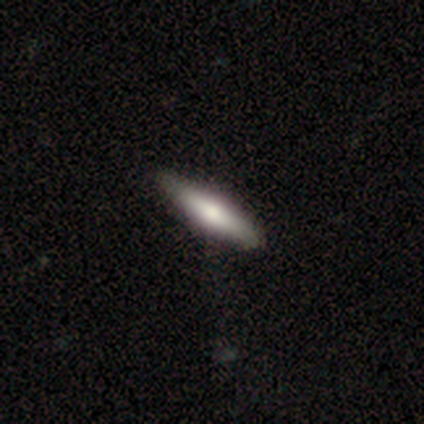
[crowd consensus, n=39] Smooth or featured? 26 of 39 (67%) said smooth. How rounded? 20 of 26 (77%) said cigar-shaped. Merging? 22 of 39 (56%) said none.